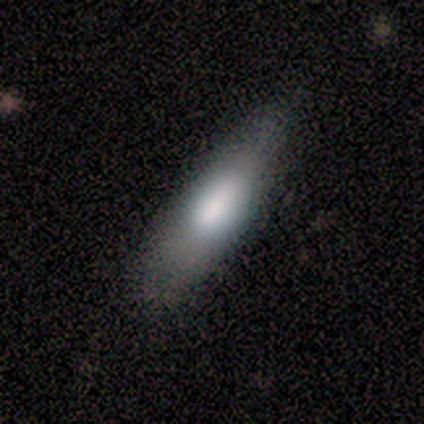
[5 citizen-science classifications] smooth-or-featured: smooth: 80% | featured or disk: 20% | star or artifact: 0%
  how-rounded: in between: 75% | cigar-shaped: 25% | round: 0%
  merging: none: 100% | minor disturbance: 0% | major disturbance: 0% | merger: 0%